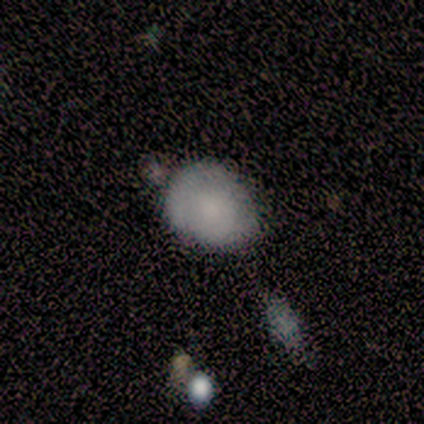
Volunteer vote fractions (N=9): Smooth or featured: smooth — 44% (tied with featured or disk — 44%)
How rounded: in between — 75% (round — 25%)
Merging: minor disturbance — 50% (none — 25%)